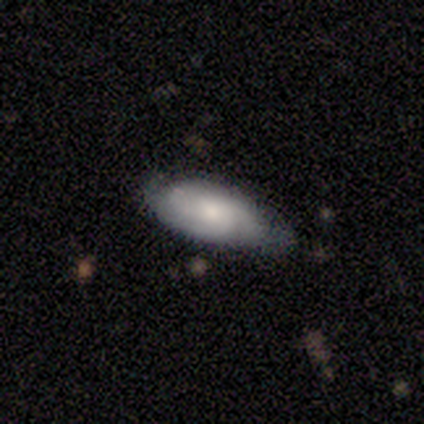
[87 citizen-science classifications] Smooth or featured: featured or disk — 51% (smooth — 44%)
Edge-on disk: no — 93% (yes — 7%)
Bar: no — 73% (weak — 22%)
Spiral arms: yes — 78% (no — 22%)
Spiral winding: tight — 78% (medium — 16%)
Spiral arm count: 3 — 38% (2 — 31%)
Bulge size: moderate — 54% (small — 34%)
Merging: none — 61% (minor disturbance — 33%)